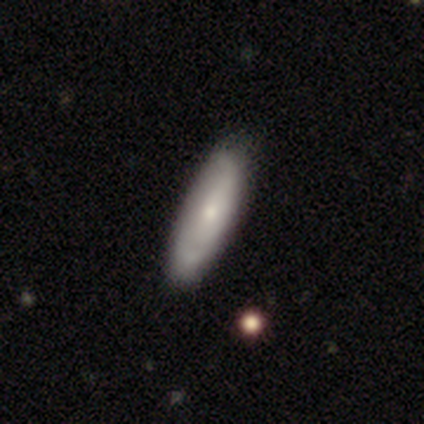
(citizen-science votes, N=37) Morphology: type=smooth (49%, tied with featured or disk); roundness=in between (50%, tied with cigar-shaped); merging=none (39%).